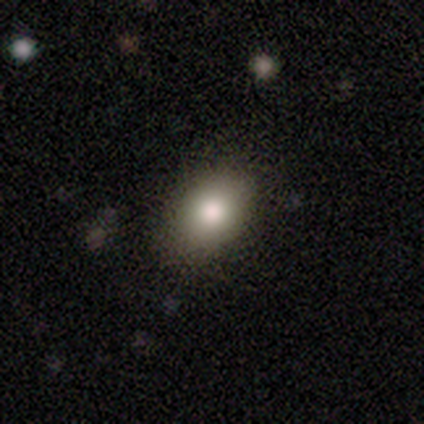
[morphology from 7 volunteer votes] smooth_or_featured: smooth (p=0.86) [alt: featured or disk p=0.14]
how_rounded: in between (p=0.83) [alt: round p=0.17]
merging: none (p=0.86) [alt: minor disturbance p=0.14]